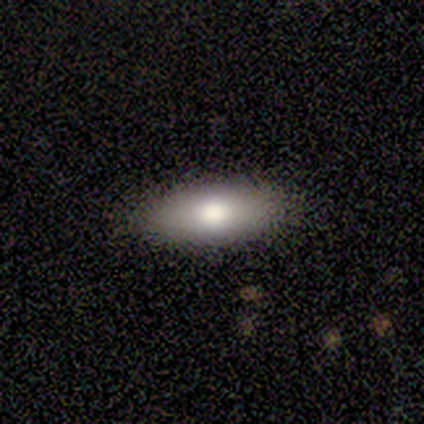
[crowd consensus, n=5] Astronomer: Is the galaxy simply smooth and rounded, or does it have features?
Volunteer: smooth — 80%.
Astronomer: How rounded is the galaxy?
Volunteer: in between — 100%.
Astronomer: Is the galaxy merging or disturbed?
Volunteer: none — 80%.